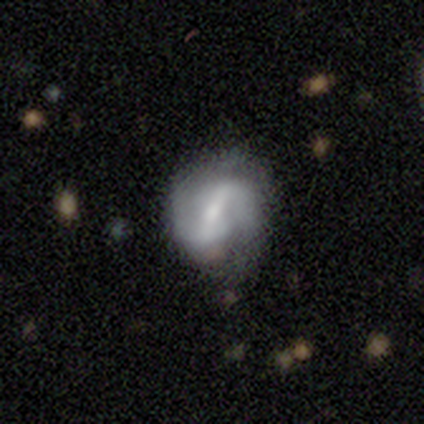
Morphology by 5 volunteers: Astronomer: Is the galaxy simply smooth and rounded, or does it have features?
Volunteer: featured or disk — 100%.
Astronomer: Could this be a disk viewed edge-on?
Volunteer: no — 100%.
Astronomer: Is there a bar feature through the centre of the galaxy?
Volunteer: strong — 60%.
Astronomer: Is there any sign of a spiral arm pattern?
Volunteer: yes — 100%.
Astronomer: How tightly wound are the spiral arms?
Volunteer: loose — 60% (runner-up: medium, 40%).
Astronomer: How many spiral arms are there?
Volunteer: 2 — 100%.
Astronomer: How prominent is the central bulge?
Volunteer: small — 60%.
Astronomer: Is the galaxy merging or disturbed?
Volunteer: none — 80%.